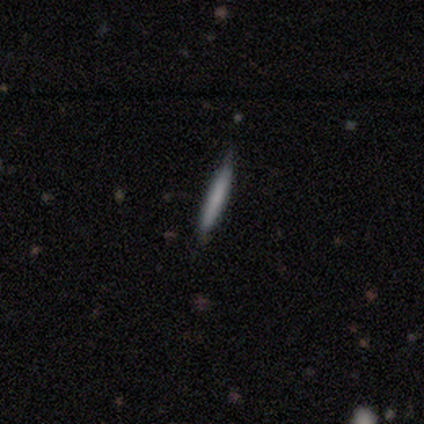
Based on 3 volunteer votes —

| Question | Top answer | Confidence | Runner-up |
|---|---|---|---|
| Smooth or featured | smooth | 67% | featured or disk (33%) |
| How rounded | cigar-shaped | 100% | — |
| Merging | none | 100% | — |